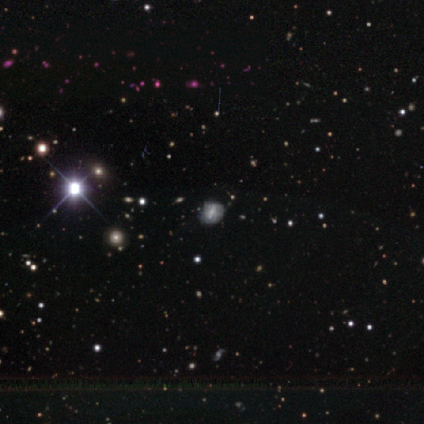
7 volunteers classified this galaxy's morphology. Smooth or featured? smooth (43%, tied with star or artifact)
How rounded? in between (100%)
Merging? none (75%)